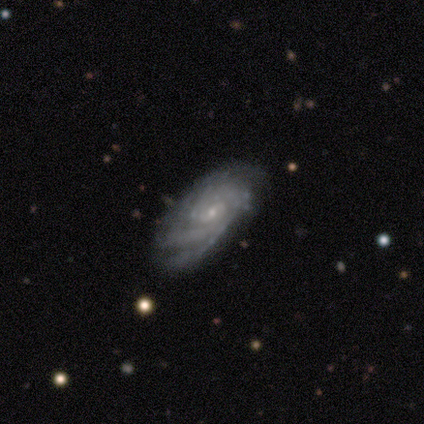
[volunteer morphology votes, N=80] A featured or disk galaxy (92%) with no bar (60%), tight (74%) spiral arms (100%) and a small central bulge (83%). Merging: none (36%).